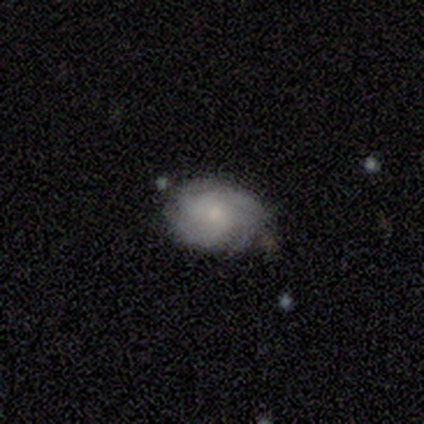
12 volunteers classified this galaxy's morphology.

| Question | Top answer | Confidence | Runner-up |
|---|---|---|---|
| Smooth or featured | featured or disk | 67% | smooth (33%) |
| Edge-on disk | no | 100% | — |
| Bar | no | 88% | weak (12%) |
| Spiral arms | yes | 88% | no (12%) |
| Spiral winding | tight | 57% | medium (43%) |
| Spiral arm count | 4 | 57% | can't tell (29%) |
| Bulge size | small | 62% | moderate (38%) |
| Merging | none | 75% | minor disturbance (25%) |